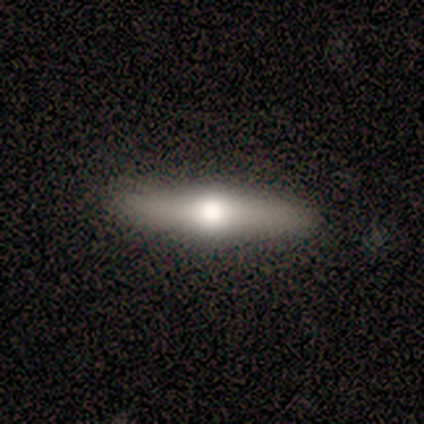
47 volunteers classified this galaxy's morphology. type=featured or disk (81%); edge-on=yes (92%); edge-on bulge=rounded (97%); merging=none (91%).